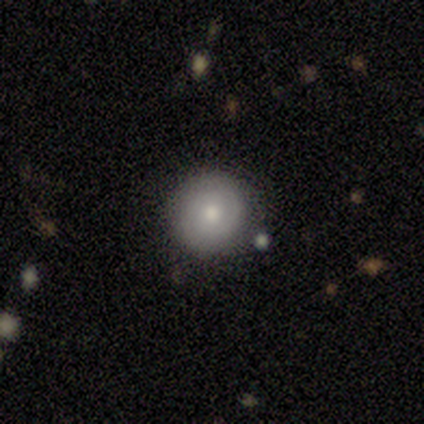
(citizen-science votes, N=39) Smooth or featured? 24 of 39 (62%) said smooth. How rounded? 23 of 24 (96%) said round. Merging? 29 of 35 (83%) said none.